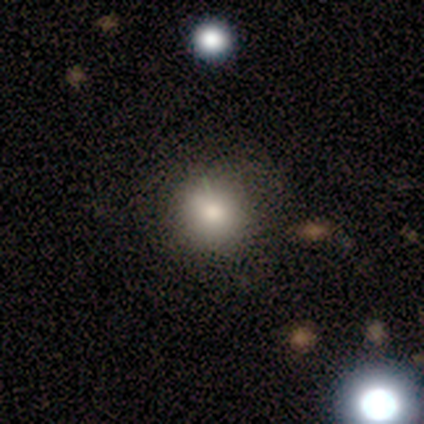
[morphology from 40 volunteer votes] type=smooth (82%); roundness=round (97%); merging=none (92%).